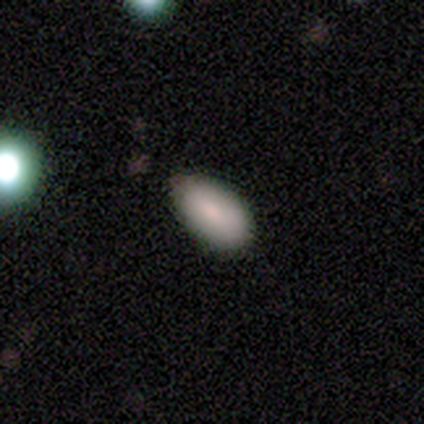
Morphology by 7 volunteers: Q: Smooth or featured?
A: smooth (86%); runner-up: featured or disk (14%)
Q: How rounded?
A: in between (67%); runner-up: round (17%)
Q: Merging?
A: none (71%); runner-up: minor disturbance (29%)